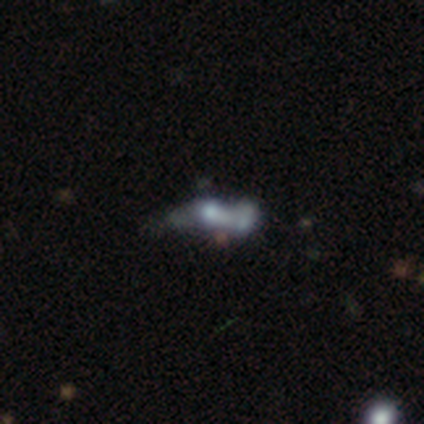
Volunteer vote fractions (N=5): featured or disk 100%, smooth 0%, star or artifact 0%. Down the decision tree: edge-on disk — no (80%); bar — no (75%); spiral arms — no (100%); bulge size — moderate (50%); merging — merger (80%).